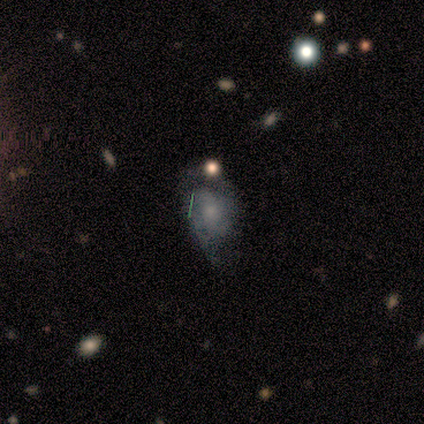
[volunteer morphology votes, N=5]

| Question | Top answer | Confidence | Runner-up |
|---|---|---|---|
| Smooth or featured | featured or disk | 60% | star or artifact (40%) |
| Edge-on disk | no | 100% | — |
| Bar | no | 100% | — |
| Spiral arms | yes | 100% | — |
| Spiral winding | medium | 67% | loose (33%) |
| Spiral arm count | can't tell | 67% | 2 (33%) |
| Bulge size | small | 67% | moderate (33%) |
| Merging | minor disturbance | 67% | none (33%) |